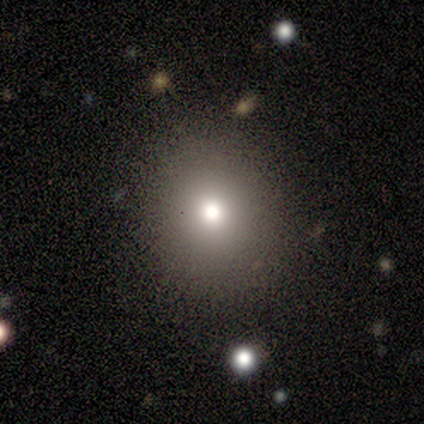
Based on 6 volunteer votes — Volunteers were most divided on "merging": none: 60%, minor disturbance: 40%, major disturbance: 0%, merger: 0%. More confident: how rounded — round (100%); smooth or featured — smooth (67%).